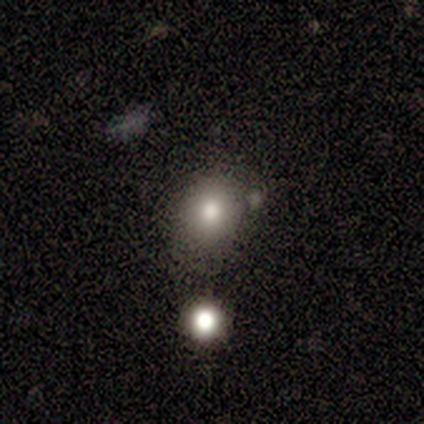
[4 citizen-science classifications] Smooth or featured: smooth — 75% (featured or disk — 25%)
How rounded: round — 100%
Merging: none — 75% (minor disturbance — 25%)